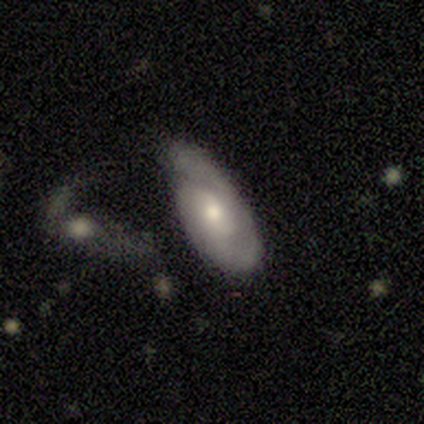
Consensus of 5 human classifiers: featured or disk 100%, smooth 0%, star or artifact 0%. Down the decision tree: edge-on disk — no (100%); bar — no (60%); spiral arms — yes (80%); spiral arm count — 1 (50%, tied with 2); spiral winding — tight (75%); bulge size — moderate (80%); merging — none (40%, tied with minor disturbance).